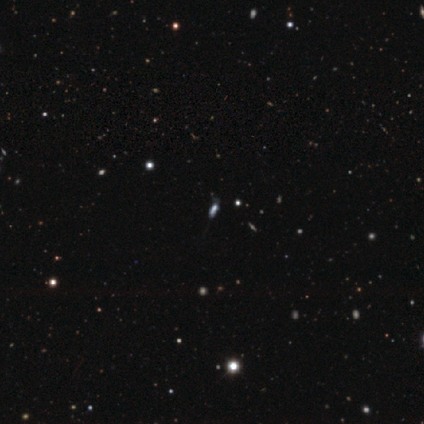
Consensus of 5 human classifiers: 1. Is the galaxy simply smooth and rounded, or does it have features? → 40% smooth (tied), 40% star or artifact (tied), 20% featured or disk.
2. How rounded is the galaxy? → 50% in between (tied), 50% cigar-shaped (tied), 0% round.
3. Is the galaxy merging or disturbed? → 67% none, 33% minor disturbance, 0% major disturbance, 0% merger.